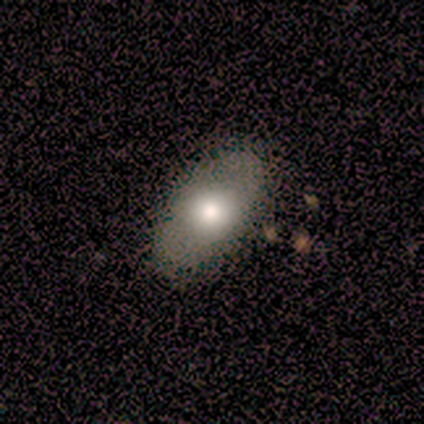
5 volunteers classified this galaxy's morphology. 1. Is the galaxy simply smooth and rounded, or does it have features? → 100% smooth, 0% featured or disk, 0% star or artifact.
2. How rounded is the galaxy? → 100% in between, 0% round, 0% cigar-shaped.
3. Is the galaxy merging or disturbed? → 80% none, 20% merger, 0% minor disturbance, 0% major disturbance.